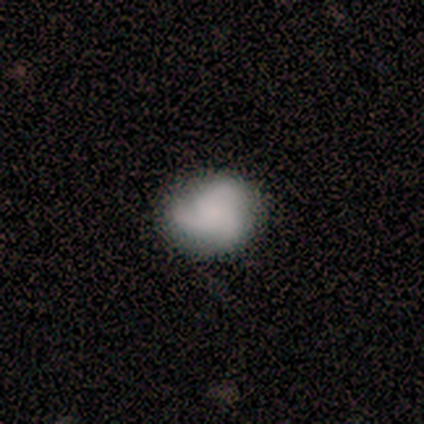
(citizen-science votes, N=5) Morphology: type=smooth (60%); roundness=in between (67%); merging=none (100%).